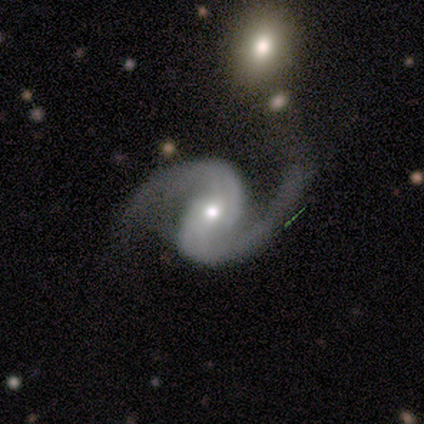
Smooth or featured?
  - featured or disk: 100% *
  - smooth: 0%
  - star or artifact: 0%
Edge-on disk?
  - no: 100% *
  - yes: 0%
Bar?
  - no: 60% *
  - weak: 40%
  - strong: 0%
Spiral arms?
  - yes: 100% *
  - no: 0%
Spiral winding?
  - loose: 100% *
  - tight: 0%
  - medium: 0%
Spiral arm count?
  - 2: 100% *
  - 1: 0%
  - 3: 0%
  - 4: 0%
  - more than 4: 0%
  - can't tell: 0%
Bulge size?
  - small: 60% *
  - dominant: 20%
  - moderate: 20%
  - large: 0%
  - none: 0%
Merging?
  - none: 100% *
  - minor disturbance: 0%
  - major disturbance: 0%
  - merger: 0%